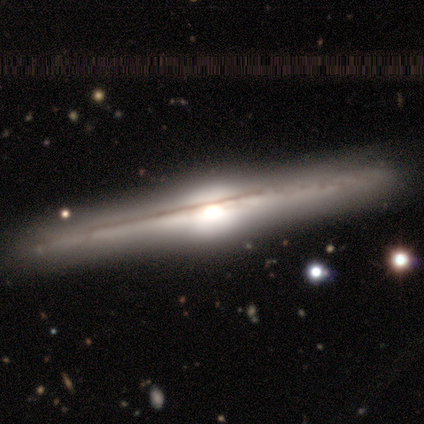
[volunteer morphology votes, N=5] Smooth or featured? featured or disk (100%)
Edge-on disk? yes (80%)
Edge-on bulge? rounded (75%)
Merging? none (80%)